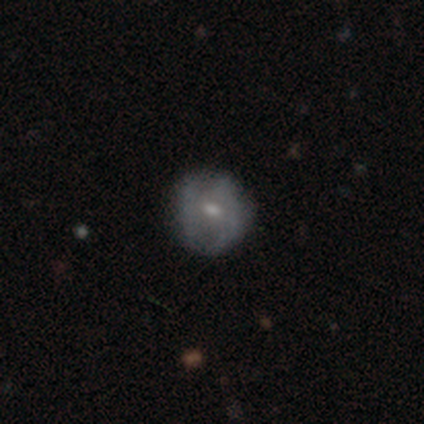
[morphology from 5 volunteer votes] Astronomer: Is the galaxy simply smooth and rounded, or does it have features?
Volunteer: smooth — 60% (runner-up: featured or disk, 40%).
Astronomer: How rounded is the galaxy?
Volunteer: round — 67%.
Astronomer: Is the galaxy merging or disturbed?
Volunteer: none — 60% (runner-up: minor disturbance, 40%).